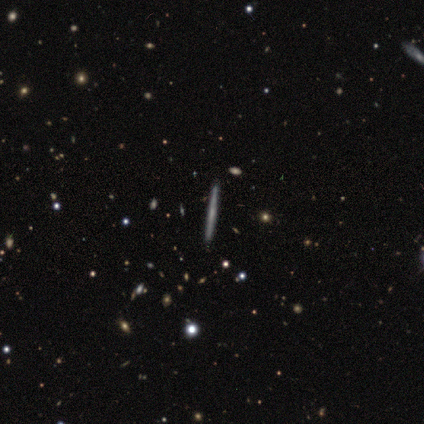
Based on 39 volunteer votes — Volunteers were most divided on "smooth or featured": featured or disk: 69%, smooth: 23%, star or artifact: 8%. More confident: edge-on disk — yes (100%); merging — none (97%); edge-on bulge — none (81%).